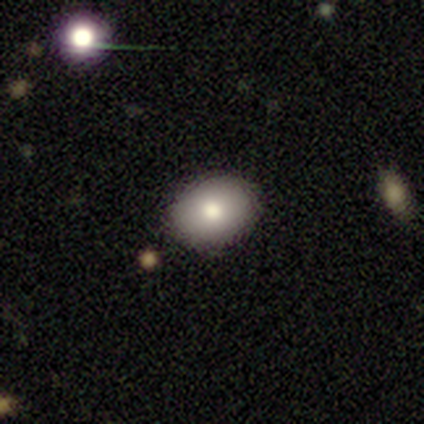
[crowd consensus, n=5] smooth 100%, featured or disk 0%, star or artifact 0%. Down the decision tree: how rounded — in between (80%); merging — none (80%).